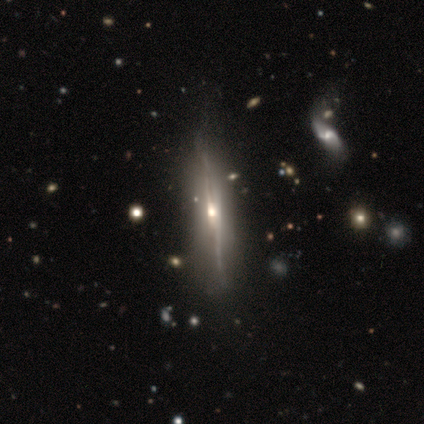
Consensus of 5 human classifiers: This is likely a featured or disk galaxy (60%). It is clearly viewed edge-on (100%). Edge-on bulge: clearly rounded (100%). Merging: clearly none (80%).